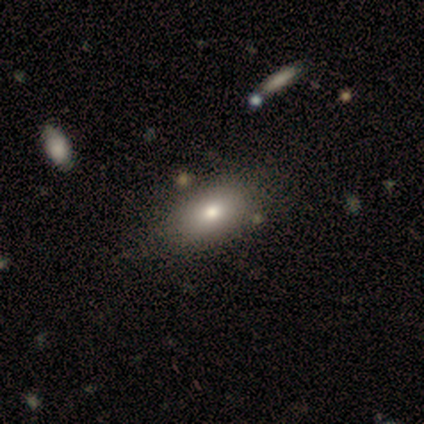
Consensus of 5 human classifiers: smooth-or-featured: featured or disk: 60% | smooth: 40% | star or artifact: 0%
  disk-edge-on: no: 100% | yes: 0%
    bar: no: 67% | strong: 33% | weak: 0%
    has-spiral-arms: no: 100% | yes: 0%
    bulge-size: large: 33% (tied) | moderate: 33% (tied) | none: 33% (tied) | dominant: 0% | small: 0%
  merging: none: 60% | minor disturbance: 20% | major disturbance: 20% | merger: 0%